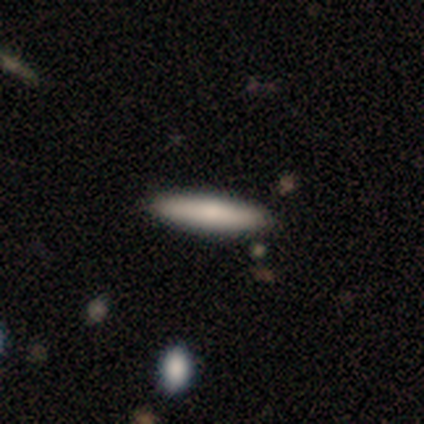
Morphology: type=smooth (69%); roundness=cigar-shaped (78%); merging=none (100%).